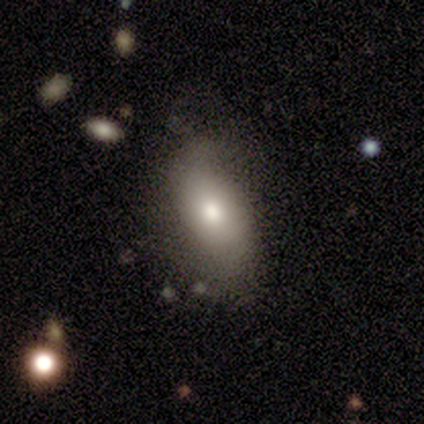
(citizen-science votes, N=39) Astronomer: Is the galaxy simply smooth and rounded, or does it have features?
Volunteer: smooth — 72%.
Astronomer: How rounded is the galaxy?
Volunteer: in between — 89%.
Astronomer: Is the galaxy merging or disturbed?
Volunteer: none — 63%.